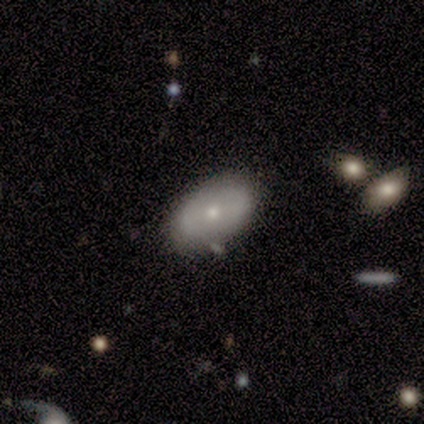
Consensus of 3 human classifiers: Morphology: type=featured or disk (67%); edge-on=no (100%); bar=weak (50%, tied with no); spiral arms=no (100%); bulge=small (100%); merging=none (67%).